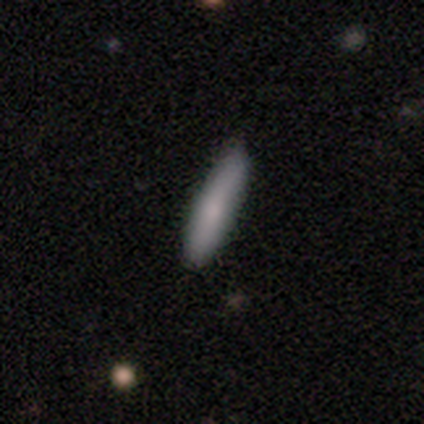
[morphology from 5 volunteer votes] Q: Smooth or featured?
A: smooth (80%); runner-up: star or artifact (20%)
Q: How rounded?
A: cigar-shaped (75%); runner-up: in between (25%)
Q: Merging?
A: none (100%)